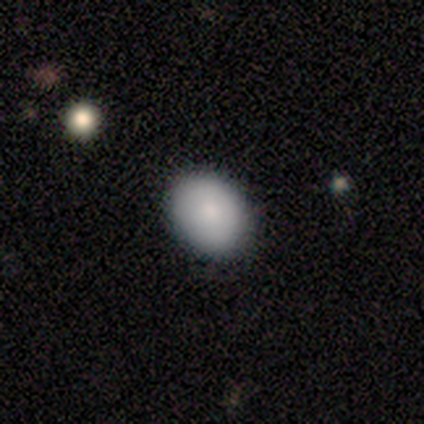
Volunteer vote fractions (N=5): Volunteers were most divided on "how rounded": in between: 80%, round: 20%, cigar-shaped: 0%. More confident: smooth or featured — smooth (100%); merging — none (80%).